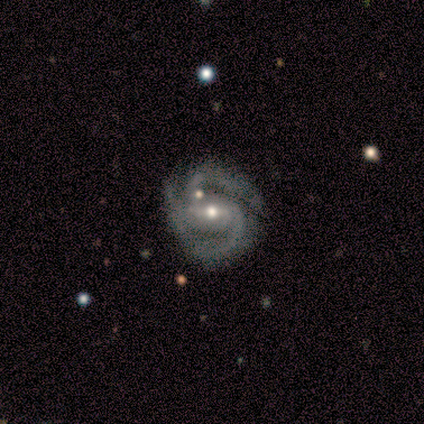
featured or disk 100%, smooth 0%, star or artifact 0%. Down the decision tree: edge-on disk — no (100%); bar — weak (80%); spiral arms — yes (100%); spiral arm count — 2 (100%); spiral winding — tight (60%); bulge size — small (60%); merging — none (80%).